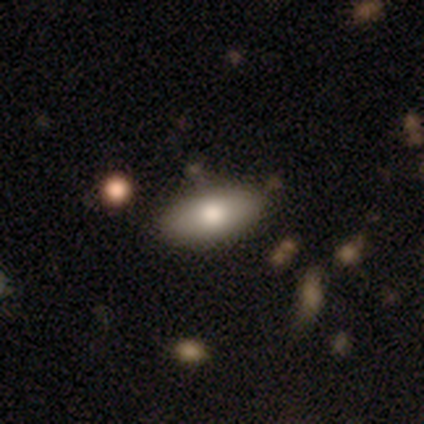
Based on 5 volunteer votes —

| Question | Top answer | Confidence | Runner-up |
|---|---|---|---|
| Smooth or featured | smooth | 80% | star or artifact (20%) |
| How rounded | in between | 100% | — |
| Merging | none | 100% | — |